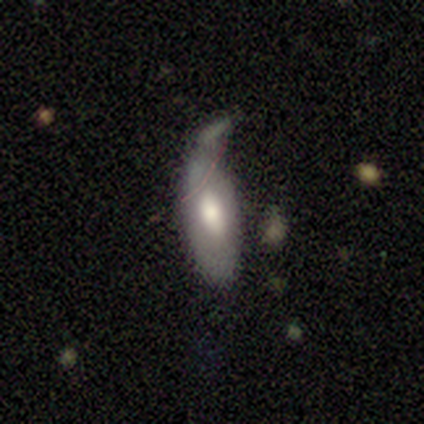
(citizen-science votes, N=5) This appears to be a smooth galaxy with no disk features (100%) that is in between round and cigar-shaped (80%). Merging: major disturbance (40%).